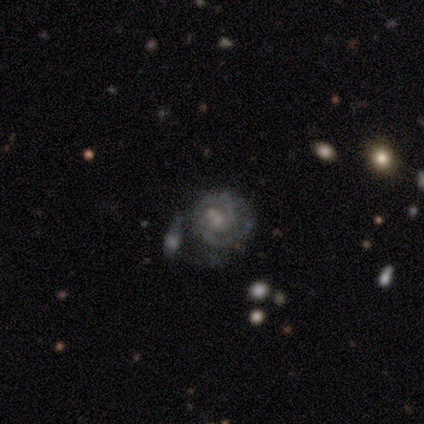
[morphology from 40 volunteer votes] Smooth or featured? 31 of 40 (78%) said featured or disk. Edge-on disk? 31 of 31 (100%) said no. Bar? 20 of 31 (65%) said no. Spiral arms? 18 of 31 (58%) said yes. Spiral winding? 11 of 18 (61%) said tight. Spiral arm count? 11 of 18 (61%) said 2. Bulge size? 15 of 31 (48%) said small. Merging? 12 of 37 (32%) said none.